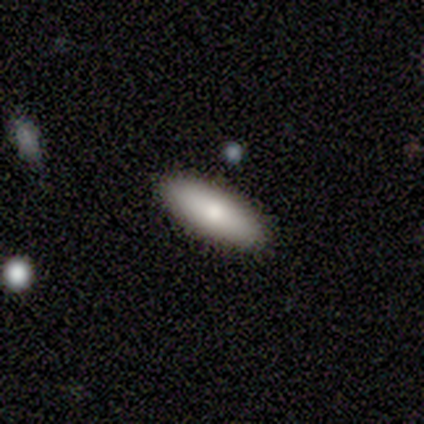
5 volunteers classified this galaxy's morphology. smooth-or-featured: smooth: 100% | featured or disk: 0% | star or artifact: 0%
  how-rounded: in between: 80% | cigar-shaped: 20% | round: 0%
  merging: none: 80% | merger: 20% | minor disturbance: 0% | major disturbance: 0%